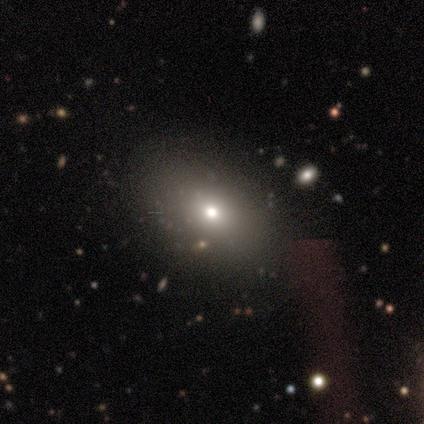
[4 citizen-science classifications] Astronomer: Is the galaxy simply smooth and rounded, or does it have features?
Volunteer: smooth — 100%.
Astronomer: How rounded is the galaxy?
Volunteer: in between — 75%.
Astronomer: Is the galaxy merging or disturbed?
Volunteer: none — 100%.